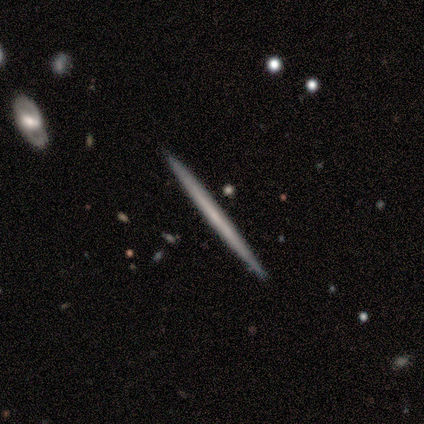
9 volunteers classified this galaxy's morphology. This is likely a featured or disk galaxy (67%). It is clearly viewed edge-on (100%). Edge-on bulge: clearly none (83%). Merging: clearly none (100%).